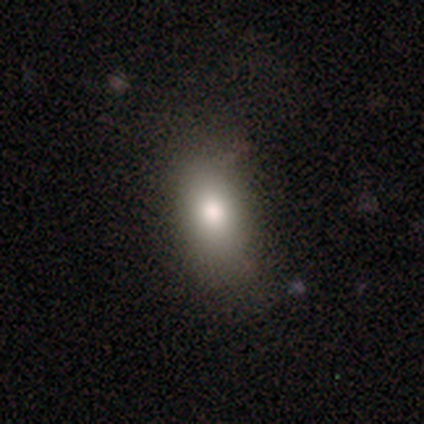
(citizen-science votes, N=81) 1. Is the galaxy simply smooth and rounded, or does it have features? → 78% smooth, 15% featured or disk, 7% star or artifact.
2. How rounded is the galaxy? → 83% in between, 10% cigar-shaped, 8% round.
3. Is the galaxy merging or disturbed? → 69% none, 17% minor disturbance, 11% major disturbance, 3% merger.